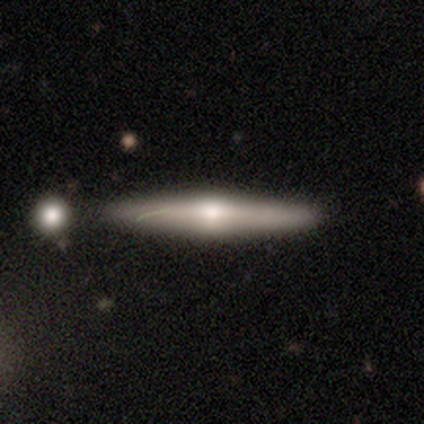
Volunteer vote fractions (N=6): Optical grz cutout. It shows a featured or disk galaxy (83%) viewed edge-on (100%) with a rounded central bulge (100%). Merging: none (100%).